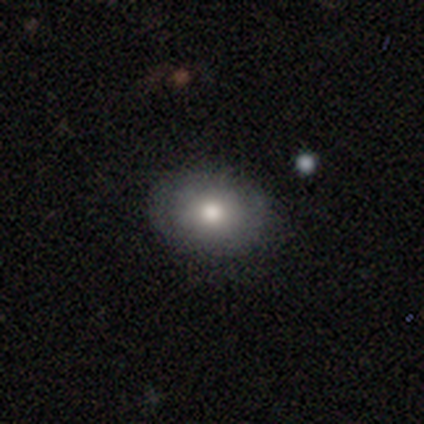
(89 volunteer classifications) Smooth or featured? 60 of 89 (67%) said smooth. How rounded? 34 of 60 (57%) said round. Merging? 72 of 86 (84%) said none.